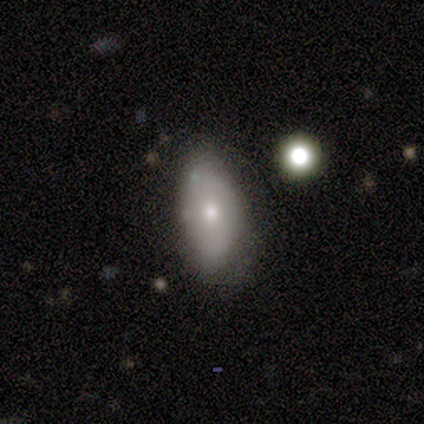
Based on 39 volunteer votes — Smooth or featured: smooth — 67% (featured or disk — 21%)
How rounded: in between — 88% (round — 8%)
Merging: none — 59% (minor disturbance — 26%)